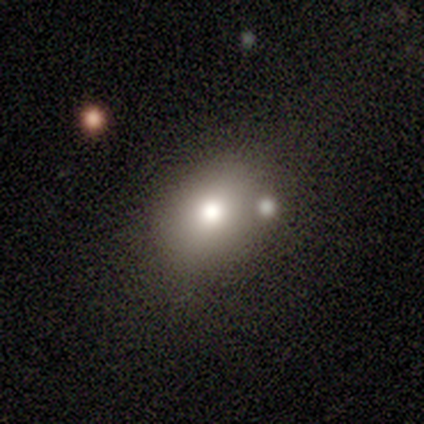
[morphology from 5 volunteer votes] smooth 100%, featured or disk 0%, star or artifact 0%. Down the decision tree: how rounded — round (80%); merging — none (80%).